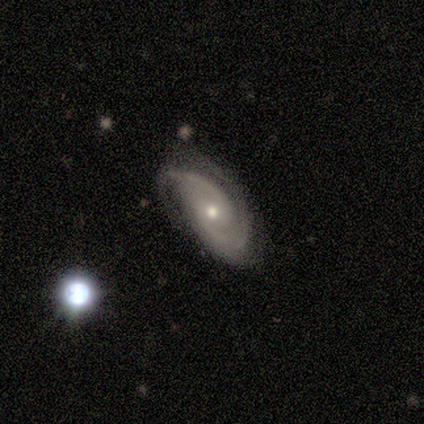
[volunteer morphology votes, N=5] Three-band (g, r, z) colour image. It shows a featured or disk galaxy (100%) with no bar (80%), 2 (67%) tight (67%) spiral arms (60%) and a moderate central bulge (80%). Merging: none (80%).